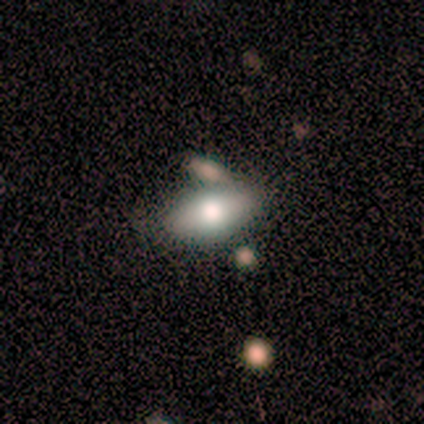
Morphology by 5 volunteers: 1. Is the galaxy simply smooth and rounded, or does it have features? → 60% smooth, 40% featured or disk, 0% star or artifact.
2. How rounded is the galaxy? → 67% in between, 33% cigar-shaped, 0% round.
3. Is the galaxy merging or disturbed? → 100% none, 0% minor disturbance, 0% major disturbance, 0% merger.